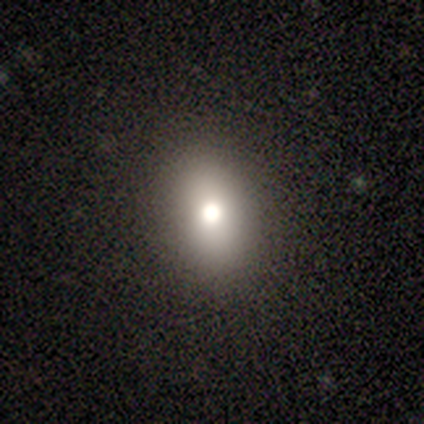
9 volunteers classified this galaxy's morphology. This is clearly a smooth galaxy (100%). How rounded: likely in between (67%). Merging: clearly none (100%).